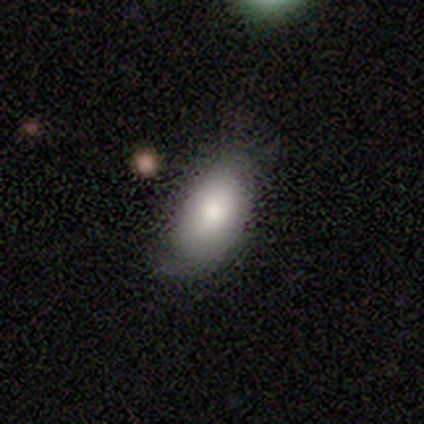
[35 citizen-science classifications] Overall: smooth (71%). How rounded: in between (96%). Merging: none (67%; minor disturbance 27%).